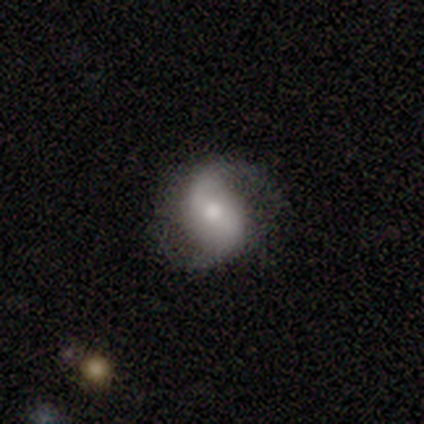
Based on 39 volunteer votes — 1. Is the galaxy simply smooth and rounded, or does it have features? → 69% featured or disk, 23% smooth, 8% star or artifact.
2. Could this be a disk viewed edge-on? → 100% no, 0% yes.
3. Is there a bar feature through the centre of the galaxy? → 56% weak, 26% no, 19% strong.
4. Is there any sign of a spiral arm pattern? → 96% yes, 4% no.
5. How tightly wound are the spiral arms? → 54% loose, 46% medium, 0% tight.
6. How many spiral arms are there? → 96% 2, 4% 1, 0% 3, 0% 4, 0% more than 4, 0% can't tell.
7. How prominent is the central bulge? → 63% moderate, 26% small, 4% dominant, 4% large, 4% none.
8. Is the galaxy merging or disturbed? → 78% none, 11% minor disturbance, 11% major disturbance, 0% merger.